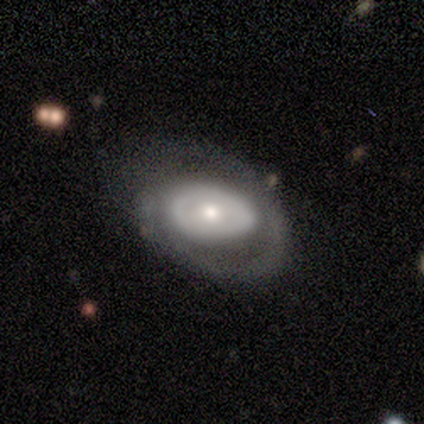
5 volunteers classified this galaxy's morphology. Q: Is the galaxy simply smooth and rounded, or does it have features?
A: featured or disk — 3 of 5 (60%).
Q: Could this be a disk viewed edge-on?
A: no — 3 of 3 (100%).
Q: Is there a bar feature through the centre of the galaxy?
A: no — 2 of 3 (67%).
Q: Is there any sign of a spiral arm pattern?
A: yes — 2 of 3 (67%).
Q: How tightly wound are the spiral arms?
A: tight — 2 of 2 (100%).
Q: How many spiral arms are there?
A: can't tell — 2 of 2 (100%).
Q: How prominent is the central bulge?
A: moderate — 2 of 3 (67%).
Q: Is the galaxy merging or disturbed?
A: none — 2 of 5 (40%, tied with minor disturbance).